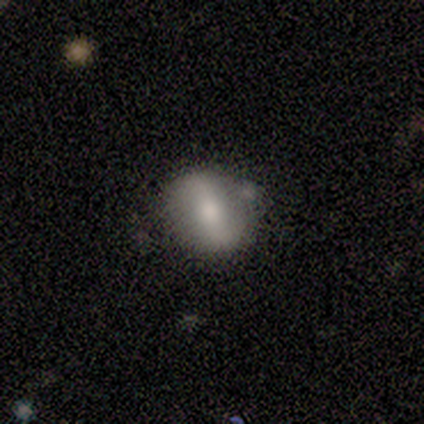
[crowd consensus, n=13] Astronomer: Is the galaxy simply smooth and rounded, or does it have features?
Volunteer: smooth — 69%.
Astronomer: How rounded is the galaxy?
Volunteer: in between — 56% (runner-up: round, 33%).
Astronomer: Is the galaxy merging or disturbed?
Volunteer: none — 62%.